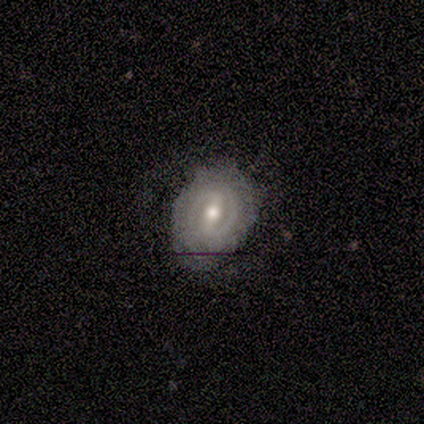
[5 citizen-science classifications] Smooth or featured? featured or disk (80%)
Edge-on disk? no (75%)
Bar? strong (67%)
Spiral arms? yes (100%)
Spiral winding? tight (67%)
Spiral arm count? 2 (67%)
Bulge size? small (67%)
Merging? none (75%)